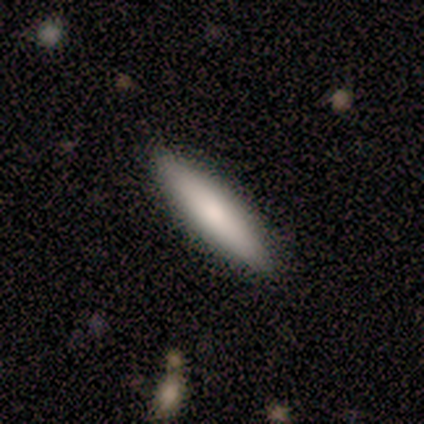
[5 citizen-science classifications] Smooth or featured? 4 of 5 (80%) said smooth. How rounded? 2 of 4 (50%, tied with cigar-shaped) said in between. Merging? 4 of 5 (80%) said none.